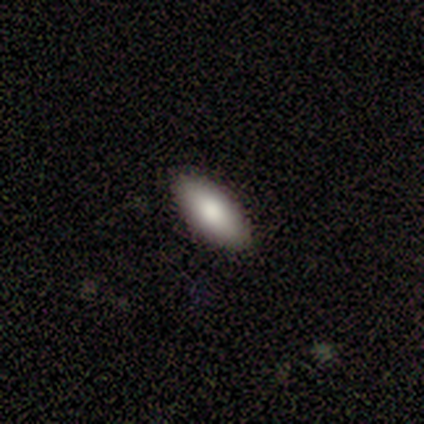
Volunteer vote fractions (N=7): This appears to be a smooth galaxy with no disk features (71%) that is in between round and cigar-shaped (100%). Merging: none (100%).